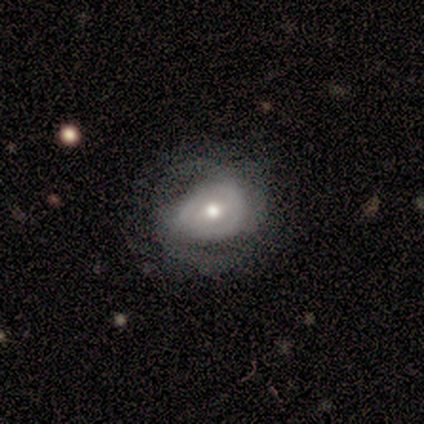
A featured or disk galaxy (60%) with a weak bar (67%), 2 (50%, tied with can't tell) tight (50%, tied with medium) spiral arms (67%) and a large central bulge (33%, tied with moderate and small).

Vote fractions:
- Smooth or featured? featured or disk: 60% / smooth: 40% / star or artifact: 0%
- Edge-on disk? no: 100% / yes: 0%
- Bar? weak: 67% / no: 33% / strong: 0%
- Spiral arms? yes: 67% / no: 33%
- Spiral winding? tight: 50% (tied) / medium: 50% (tied) / loose: 0%
- Spiral arm count? 2: 50% (tied) / can't tell: 50% (tied) / 1: 0% / 3: 0% / 4: 0% / more than 4: 0%
- Bulge size? large: 33% (tied) / moderate: 33% (tied) / small: 33% (tied) / dominant: 0% / none: 0%
- Merging? none: 80% / minor disturbance: 20% / major disturbance: 0% / merger: 0%